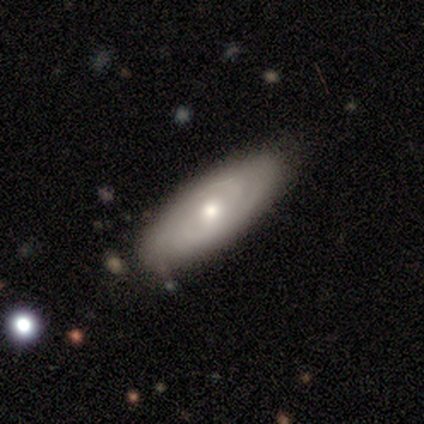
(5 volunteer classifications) smooth-or-featured: featured or disk: 80% | smooth: 20% | star or artifact: 0%
  disk-edge-on: yes: 50% (tied) | no: 50% (tied)
    edge-on-bulge: none: 50% (tied) | rounded: 50% (tied) | boxy: 0%
  merging: none: 60% | minor disturbance: 40% | major disturbance: 0% | merger: 0%